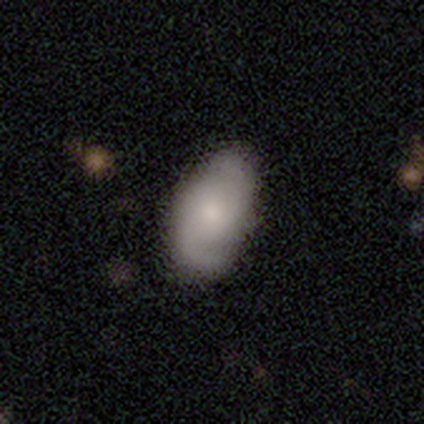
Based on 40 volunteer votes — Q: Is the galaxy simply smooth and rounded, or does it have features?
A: featured or disk — 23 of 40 (57%).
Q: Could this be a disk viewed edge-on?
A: no — 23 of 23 (100%).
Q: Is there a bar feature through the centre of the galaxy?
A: no — 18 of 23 (78%).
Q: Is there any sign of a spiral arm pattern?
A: yes — 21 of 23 (91%).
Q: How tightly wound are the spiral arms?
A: medium — 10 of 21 (48%).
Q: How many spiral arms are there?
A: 2 — 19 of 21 (90%).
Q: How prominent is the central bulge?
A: moderate — 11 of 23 (48%).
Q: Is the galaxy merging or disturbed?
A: none — 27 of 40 (68%).